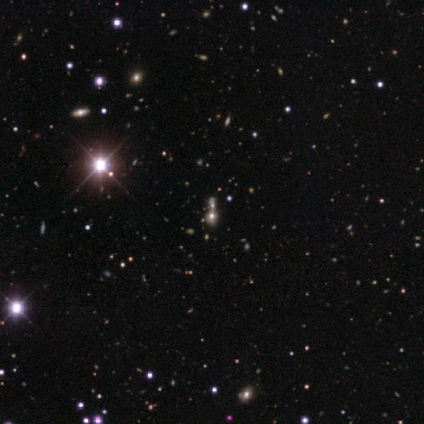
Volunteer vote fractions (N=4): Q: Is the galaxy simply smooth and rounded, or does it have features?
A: smooth — 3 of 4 (75%).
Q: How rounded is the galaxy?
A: round — 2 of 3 (67%).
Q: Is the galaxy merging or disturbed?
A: merger — 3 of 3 (100%).